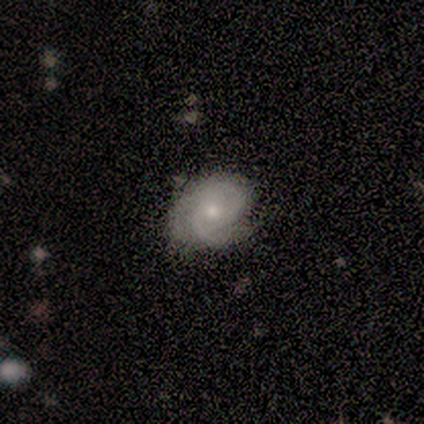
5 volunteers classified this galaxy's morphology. type=featured or disk (60%); edge-on=no (100%); bar=weak (67%); spiral arms=yes (100%); winding=tight (100%); arm count=1 (33%, tied with 2 and can't tell); bulge=small (100%); merging=none (60%).